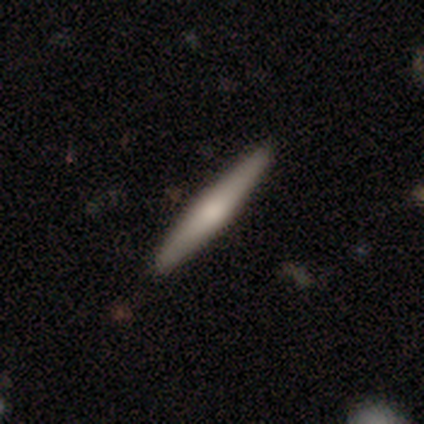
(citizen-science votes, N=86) This is possibly a smooth galaxy (57%). How rounded: clearly cigar-shaped (98%). Merging: clearly none (94%).